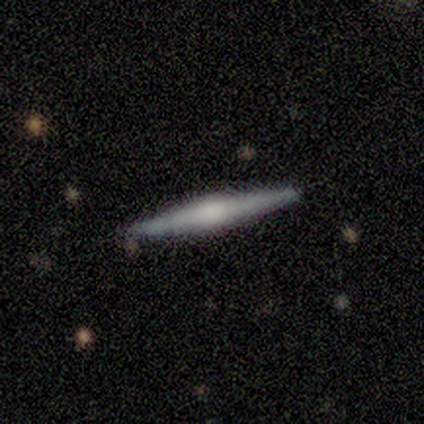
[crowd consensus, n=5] This is clearly a featured or disk galaxy (80%). It is clearly viewed edge-on (100%). Edge-on bulge: clearly rounded (100%). Merging: clearly none (80%).